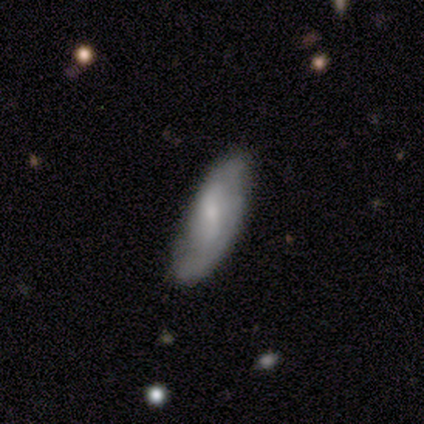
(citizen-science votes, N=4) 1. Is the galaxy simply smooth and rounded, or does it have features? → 75% smooth, 25% featured or disk, 0% star or artifact.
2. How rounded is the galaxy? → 100% in between, 0% round, 0% cigar-shaped.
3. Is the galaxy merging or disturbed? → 50% none (tied), 50% minor disturbance (tied), 0% major disturbance, 0% merger.